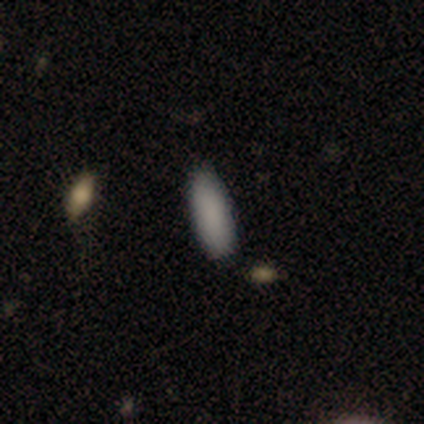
smooth_or_featured: smooth (p=0.75) [alt: star or artifact p=0.25]
how_rounded: in between (p=0.67) [alt: cigar-shaped p=0.33]
merging: none (p=1.00)